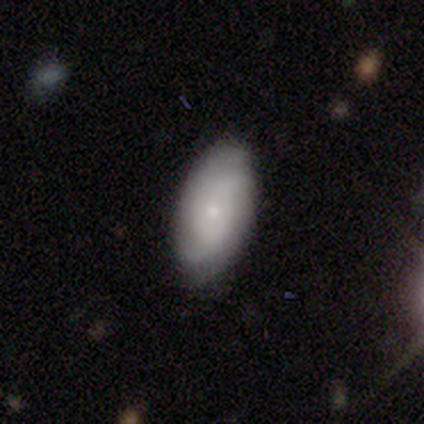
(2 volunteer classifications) Smooth or featured? 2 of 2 (100%) said smooth. How rounded? 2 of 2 (100%) said in between. Merging? 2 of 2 (100%) said none.